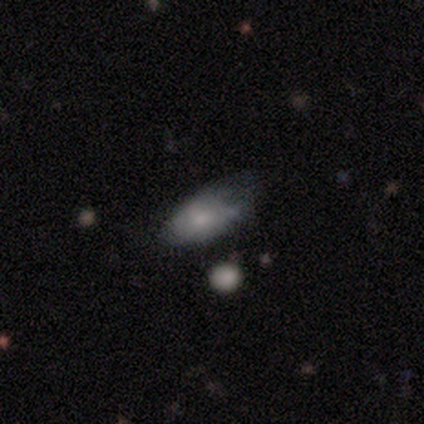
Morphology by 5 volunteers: A smooth galaxy with no disk features (80%) that is in between round and cigar-shaped (100%). Merging: minor disturbance (60%).